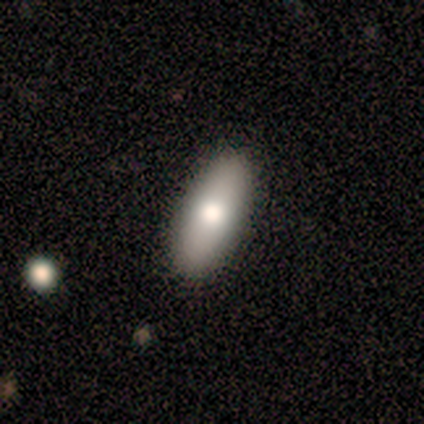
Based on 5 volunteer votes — A smooth galaxy with no disk features (60%) that is in between round and cigar-shaped (100%). Merging: none (100%).